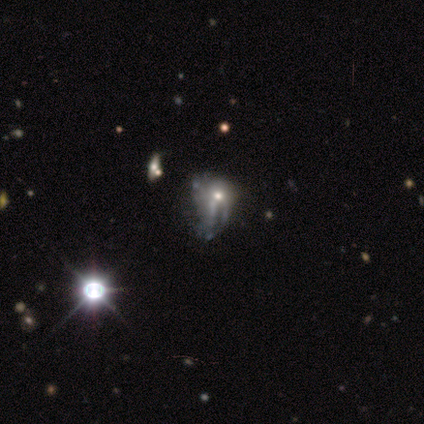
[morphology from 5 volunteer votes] type=featured or disk (60%); edge-on=no (100%); bar=no (100%); spiral arms=no (67%); bulge=small (67%); merging=major disturbance (50%).